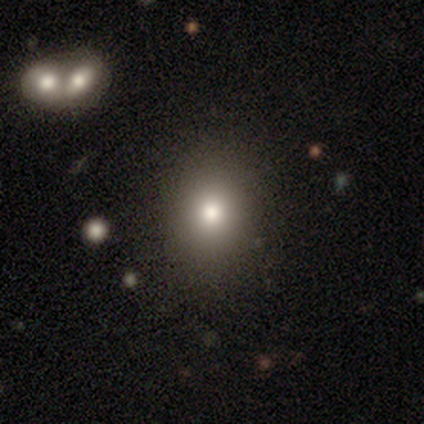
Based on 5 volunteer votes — Overall: smooth (80%). How rounded: round (75%). Merging: none (100%).